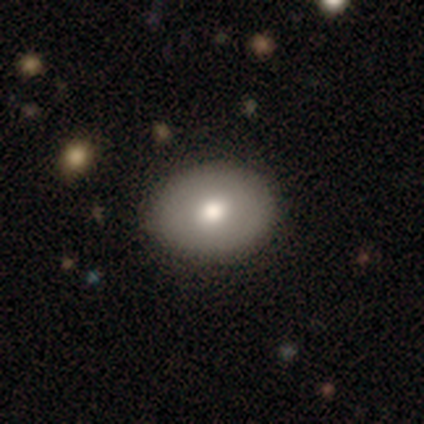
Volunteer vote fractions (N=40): A smooth galaxy with no disk features (68%) that is in between round and cigar-shaped (56%). Merging: none (90%).